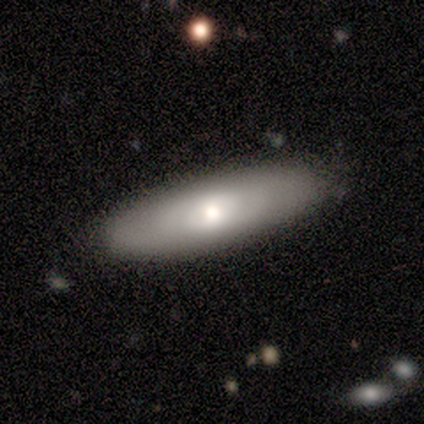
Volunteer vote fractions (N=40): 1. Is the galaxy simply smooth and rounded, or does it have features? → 52% smooth, 40% featured or disk, 8% star or artifact.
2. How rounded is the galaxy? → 57% cigar-shaped, 43% in between, 0% round.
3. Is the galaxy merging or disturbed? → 84% none, 11% minor disturbance, 3% major disturbance, 3% merger.